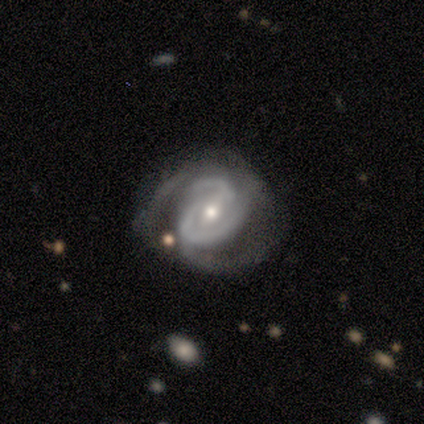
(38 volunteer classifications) Q: Smooth or featured?
A: featured or disk (84%); runner-up: smooth (8%)
Q: Edge-on disk?
A: no (100%)
Q: Bar?
A: weak (47%); runner-up: no (28%)
Q: Spiral arms?
A: yes (100%)
Q: Spiral winding?
A: tight (69%); runner-up: medium (28%)
Q: Spiral arm count?
A: 2 (59%); runner-up: can't tell (19%)
Q: Bulge size?
A: moderate (50%); runner-up: small (44%)
Q: Merging?
A: none (49%); runner-up: minor disturbance (26%)